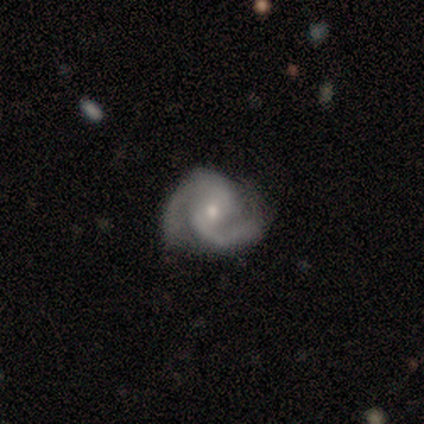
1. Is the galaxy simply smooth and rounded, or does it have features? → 80% featured or disk, 20% smooth, 0% star or artifact.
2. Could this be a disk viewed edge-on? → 100% no, 0% yes.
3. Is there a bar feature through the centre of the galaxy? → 100% weak, 0% strong, 0% no.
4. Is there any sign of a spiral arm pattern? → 100% yes, 0% no.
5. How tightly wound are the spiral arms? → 75% medium, 25% tight, 0% loose.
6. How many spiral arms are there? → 100% 2, 0% 1, 0% 3, 0% 4, 0% more than 4, 0% can't tell.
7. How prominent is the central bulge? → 75% small, 25% large, 0% dominant, 0% moderate, 0% none.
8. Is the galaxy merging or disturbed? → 80% none, 20% minor disturbance, 0% major disturbance, 0% merger.